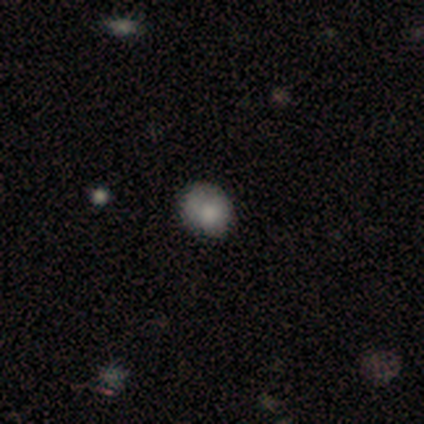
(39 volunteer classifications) smooth 77%, featured or disk 15%, star or artifact 8%. Down the decision tree: how rounded — round (63%); merging — none (69%).